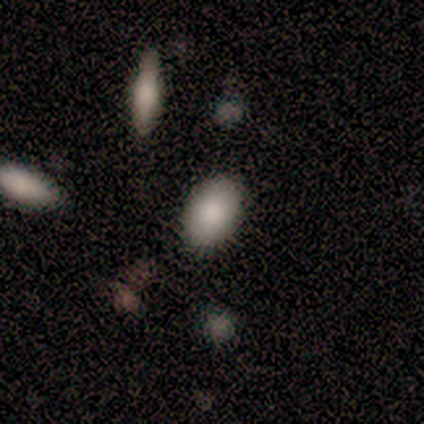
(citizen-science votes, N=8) smooth-or-featured: smooth: 62% | featured or disk: 25% | star or artifact: 12%
  how-rounded: in between: 100% | round: 0% | cigar-shaped: 0%
  merging: none: 71% | minor disturbance: 14% | major disturbance: 14% | merger: 0%